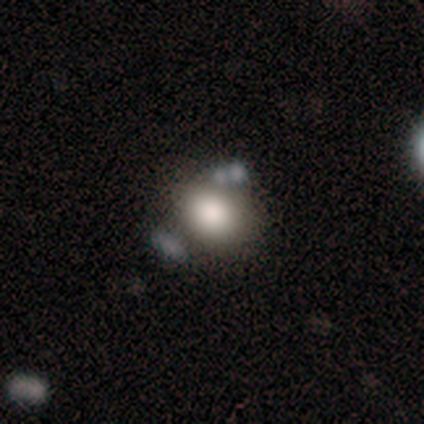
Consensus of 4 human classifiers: smooth_or_featured: smooth (p=0.75) [alt: featured or disk p=0.25]
how_rounded: round (p=1.00)
merging: none (p=0.75) [alt: merger p=0.25]